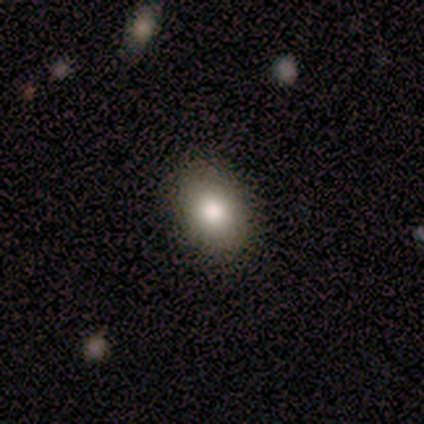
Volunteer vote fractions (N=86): Smooth or featured? smooth (79%)
How rounded? in between (81%)
Merging? none (86%)